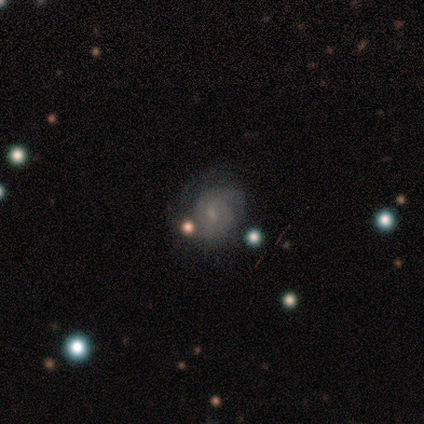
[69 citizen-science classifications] Smooth or featured? featured or disk (83%)
Edge-on disk? no (98%)
Bar? no (54%)
Spiral arms? yes (91%)
Spiral winding? tight (45%)
Spiral arm count? 2 (63%)
Bulge size? small (59%)
Merging? none (62%)